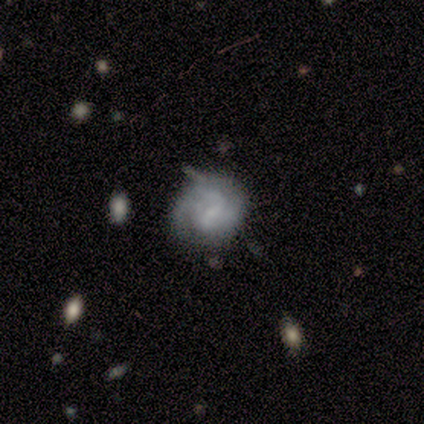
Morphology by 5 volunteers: This appears to be a featured or disk galaxy (100%) with a weak bar (60%), 1 (25%, tied with 2, 3 and can't tell) tight (50%, tied with medium) spiral arms (80%) and a small central bulge (60%). Merging: none (40%, tied with major disturbance).